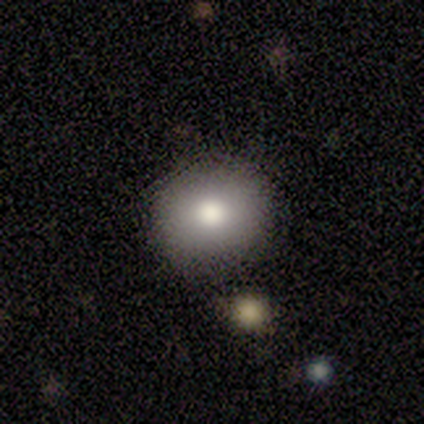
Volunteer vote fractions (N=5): Volunteers were most divided on "how rounded": round: 67%, in between: 33%, cigar-shaped: 0%. More confident: merging — none (75%); smooth or featured — smooth (60%).